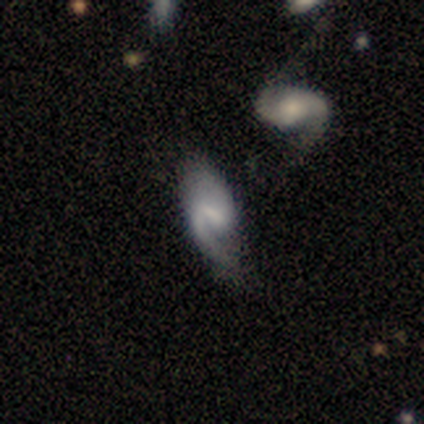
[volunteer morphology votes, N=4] A featured or disk galaxy (75%) with a weak bar (67%), 1 (67%) loose (100%) spiral arms (100%) and no central bulge (67%). Merging: none (50%).